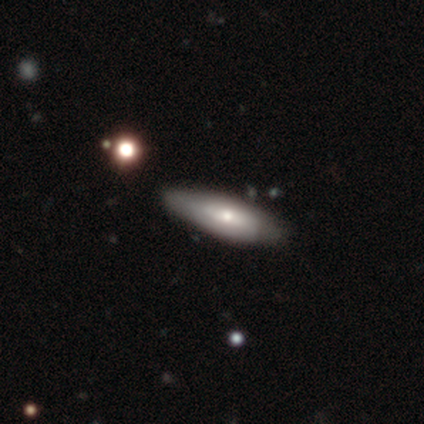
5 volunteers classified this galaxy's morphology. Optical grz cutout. It shows a smooth galaxy with no disk features (40%, tied with featured or disk) that is cigar-shaped (100%). Merging: none (75%).